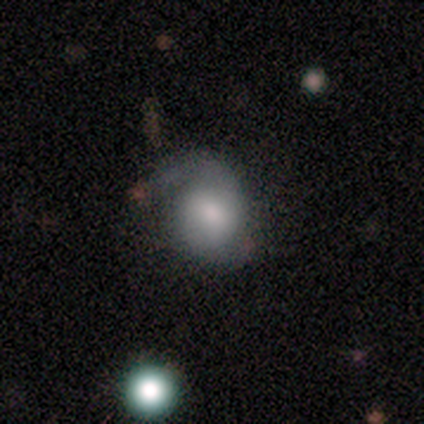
A smooth galaxy with no disk features (46%, tied with featured or disk) that is round (50%, tied with in between).

Vote fractions:
- Smooth or featured? smooth: 46% (tied) / featured or disk: 46% (tied) / star or artifact: 8%
- How rounded? round: 50% (tied) / in between: 50% (tied) / cigar-shaped: 0%
- Merging? none: 50% / minor disturbance: 25% / major disturbance: 25% / merger: 0%